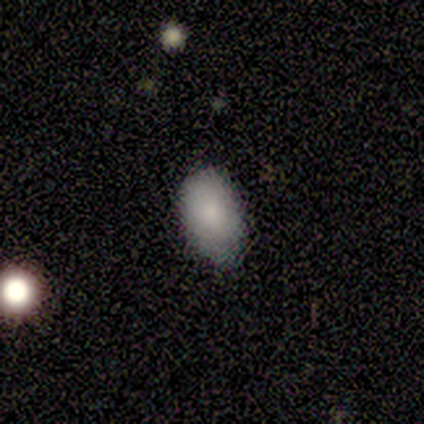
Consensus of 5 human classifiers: This is clearly a smooth galaxy (100%). How rounded: clearly in between (80%). Merging: clearly none (100%).